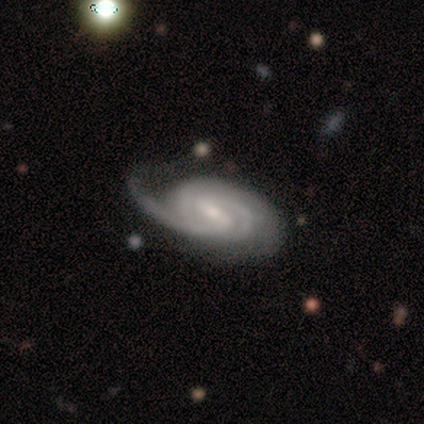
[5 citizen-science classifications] Smooth or featured? featured or disk (100%)
Edge-on disk? no (100%)
Bar? weak (60%)
Spiral arms? yes (100%)
Spiral winding? tight (60%)
Spiral arm count? 2 (80%)
Bulge size? small (60%)
Merging? none (60%)